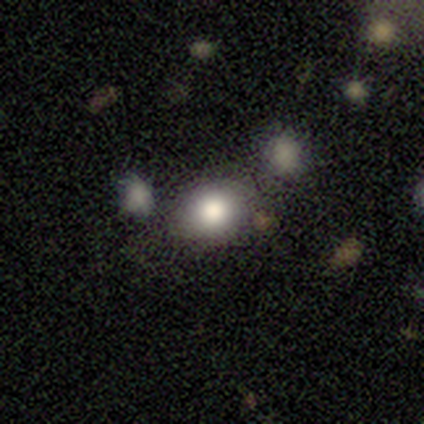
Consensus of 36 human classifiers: Overall: smooth (94%). How rounded: round (65%; in between 32%). Merging: none (71%).